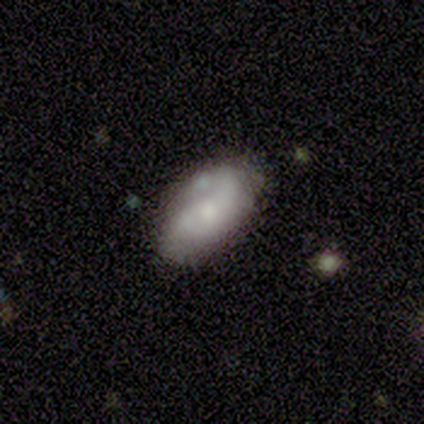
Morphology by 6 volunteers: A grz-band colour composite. It shows a smooth galaxy with no disk features (67%) that is in between round and cigar-shaped (100%). Merging: minor disturbance (67%).